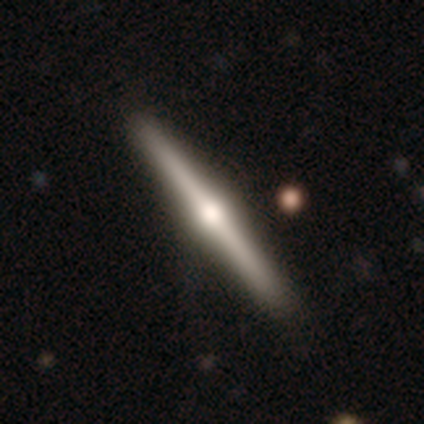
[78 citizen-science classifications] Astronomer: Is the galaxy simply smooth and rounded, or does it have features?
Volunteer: featured or disk — 81%.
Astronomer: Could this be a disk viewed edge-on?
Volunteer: yes — 100%.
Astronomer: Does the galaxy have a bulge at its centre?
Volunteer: rounded — 97%.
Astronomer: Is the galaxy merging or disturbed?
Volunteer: none — 47%.